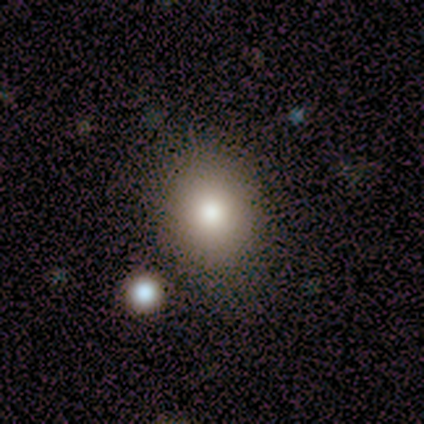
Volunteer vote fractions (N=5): Smooth or featured? 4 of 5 (80%) said smooth. How rounded? 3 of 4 (75%) said round. Merging? 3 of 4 (75%) said none.